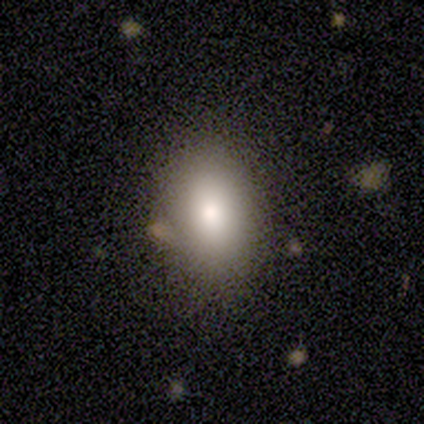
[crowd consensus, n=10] Smooth or featured? 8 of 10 (80%) said smooth. How rounded? 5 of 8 (62%) said in between. Merging? 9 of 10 (90%) said none.